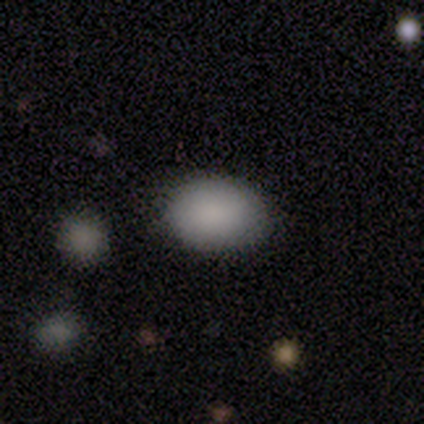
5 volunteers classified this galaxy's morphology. Overall: smooth (100%). How rounded: in between (80%). Merging: none (80%).